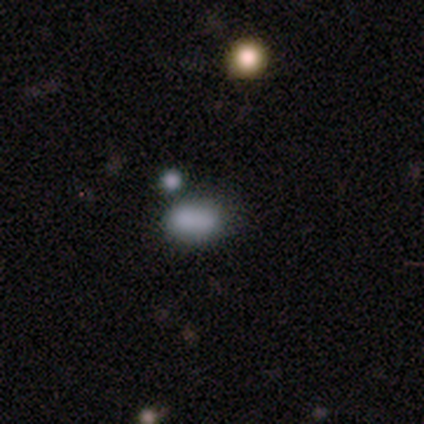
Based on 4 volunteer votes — Smooth or featured? 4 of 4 (100%) said smooth. How rounded? 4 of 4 (100%) said in between. Merging? 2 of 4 (50%) said none.